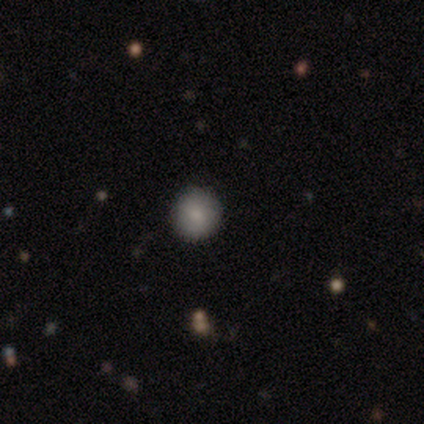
A smooth galaxy with no disk features (100%) that is round (100%). Merging: none (100%).